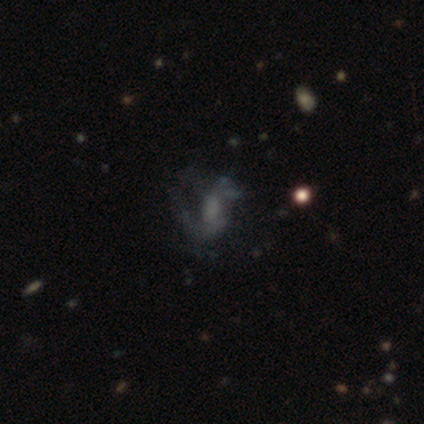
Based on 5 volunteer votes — A smooth galaxy with no disk features (40%, tied with featured or disk) that is in between round and cigar-shaped (100%). Merging: minor disturbance (50%).